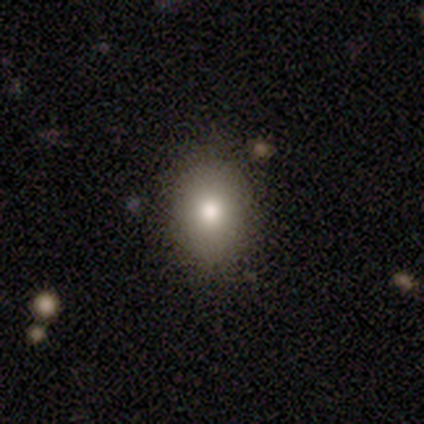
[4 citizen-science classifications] This is likely a smooth galaxy (75%). How rounded: likely in between (67%). Merging: likely none (75%).